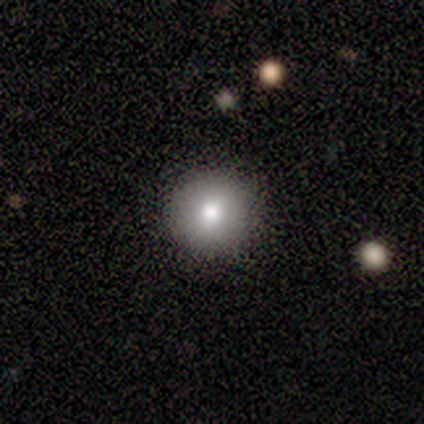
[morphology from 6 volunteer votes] Q: Smooth or featured?
A: smooth (83%); runner-up: featured or disk (17%)
Q: How rounded?
A: round (100%)
Q: Merging?
A: none (100%)